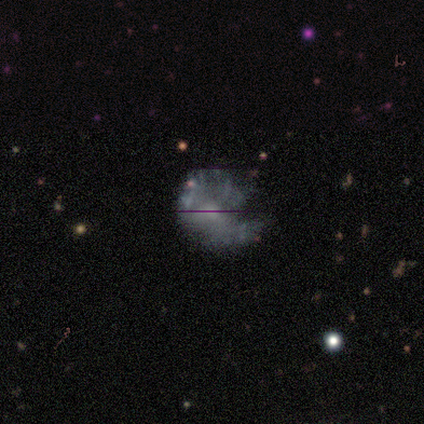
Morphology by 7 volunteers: Overall: featured or disk (71%). Edge-on disk: no (100%). Bar: no (100%). Spiral arms: no (80%). Bulge size: none (60%; small 40%). Merging: none (57%; major disturbance 29%).